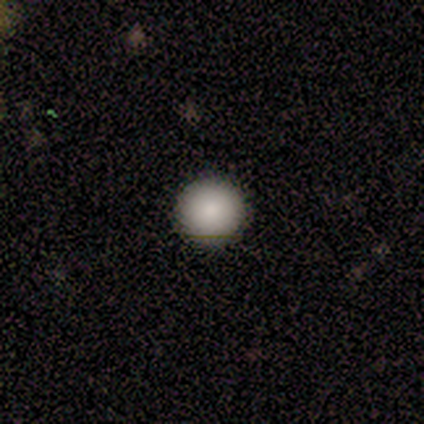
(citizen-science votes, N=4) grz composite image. It shows a smooth galaxy with no disk features (75%) that is round (100%). Merging: none (100%).